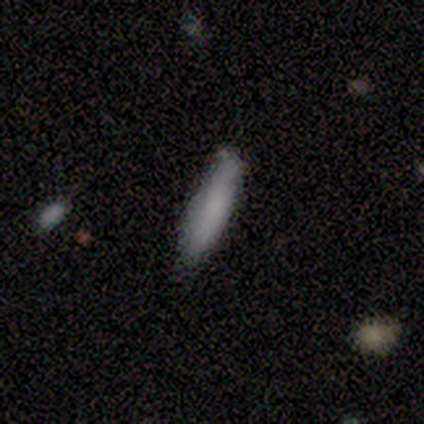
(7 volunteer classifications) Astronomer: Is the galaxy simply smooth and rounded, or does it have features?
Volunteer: smooth — 57%.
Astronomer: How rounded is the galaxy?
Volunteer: cigar-shaped — 100%.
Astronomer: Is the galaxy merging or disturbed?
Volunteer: none — 83%.